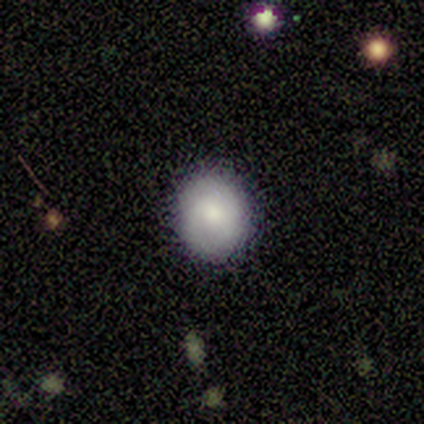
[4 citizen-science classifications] Volunteers were most divided on "how rounded": round: 75%, in between: 25%, cigar-shaped: 0%. More confident: smooth or featured — smooth (100%); merging — none (100%).